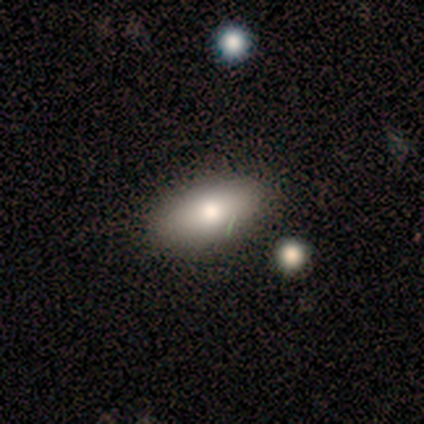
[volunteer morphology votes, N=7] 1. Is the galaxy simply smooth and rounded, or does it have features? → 100% smooth, 0% featured or disk, 0% star or artifact.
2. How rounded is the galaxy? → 86% in between, 14% cigar-shaped, 0% round.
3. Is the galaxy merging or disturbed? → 86% none, 14% minor disturbance, 0% major disturbance, 0% merger.